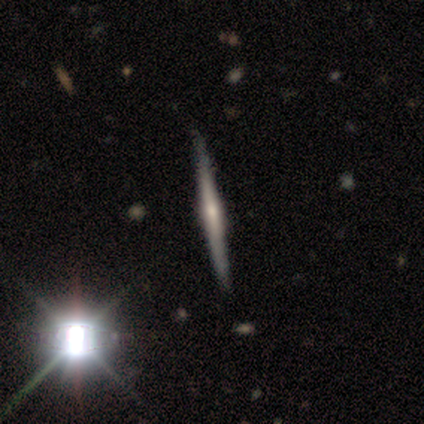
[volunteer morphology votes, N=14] Smooth or featured? featured or disk (86%)
Edge-on disk? yes (100%)
Edge-on bulge? rounded (67%)
Merging? none (86%)